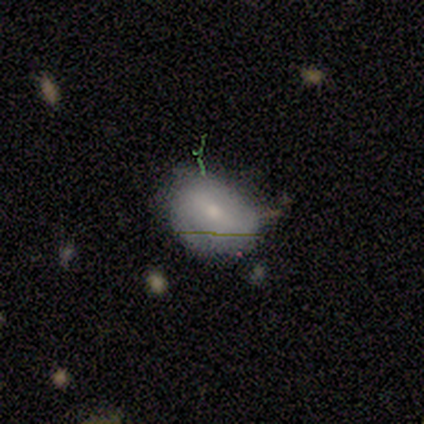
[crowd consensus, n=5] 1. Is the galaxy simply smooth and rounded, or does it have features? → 100% smooth, 0% featured or disk, 0% star or artifact.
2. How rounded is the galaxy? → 100% in between, 0% round, 0% cigar-shaped.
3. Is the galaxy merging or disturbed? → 60% none, 40% minor disturbance, 0% major disturbance, 0% merger.